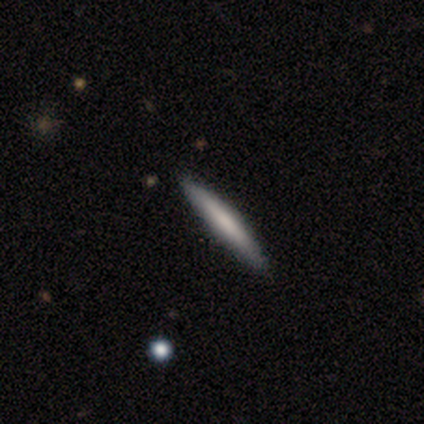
smooth 100%, featured or disk 0%, star or artifact 0%. Down the decision tree: how rounded — cigar-shaped (100%); merging — none (100%).